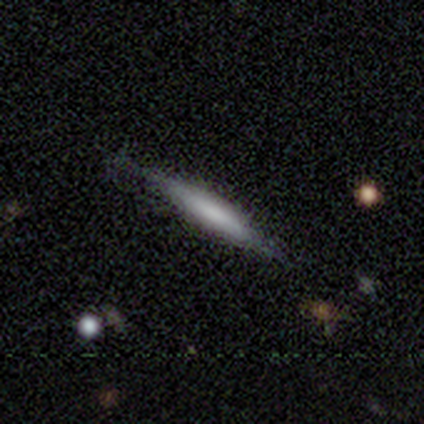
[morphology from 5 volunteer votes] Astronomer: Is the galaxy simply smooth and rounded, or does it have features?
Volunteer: smooth — 60% (runner-up: featured or disk, 40%).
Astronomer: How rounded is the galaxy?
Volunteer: cigar-shaped — 67%.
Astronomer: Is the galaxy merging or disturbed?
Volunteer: none — 80%.